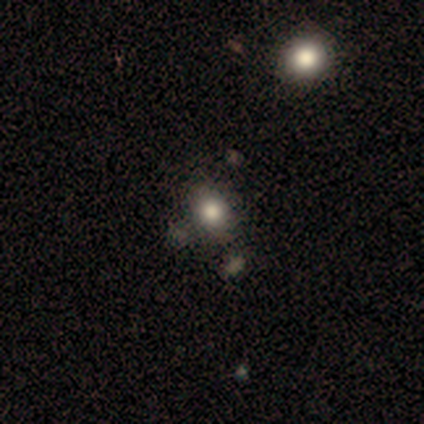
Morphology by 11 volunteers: Volunteers were most divided on "smooth or featured": smooth: 64%, star or artifact: 36%, featured or disk: 0%. More confident: how rounded — in between (86%); merging — none (86%).